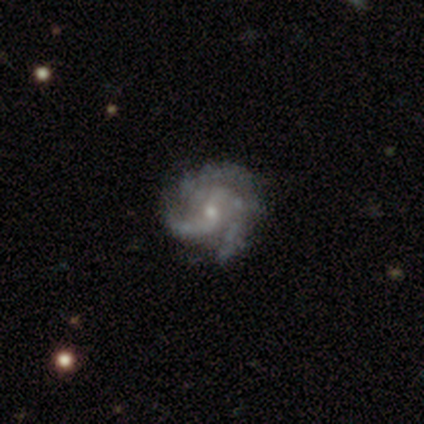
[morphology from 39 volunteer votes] This appears to be a featured or disk galaxy (87%) with no bar (53%), 3 (68%) tight (50%) spiral arms (100%) and a small central bulge (59%). Merging: none (63%).